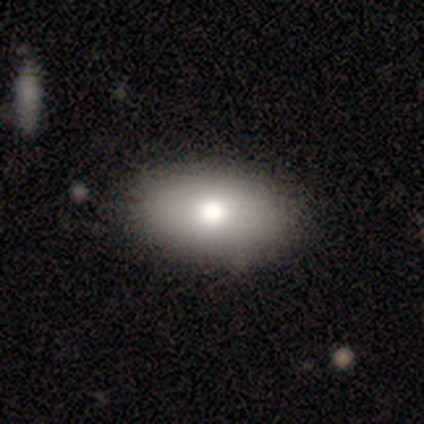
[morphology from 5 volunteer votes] This appears to be a smooth galaxy with no disk features (80%) that is in between round and cigar-shaped (100%). Merging: none (60%).